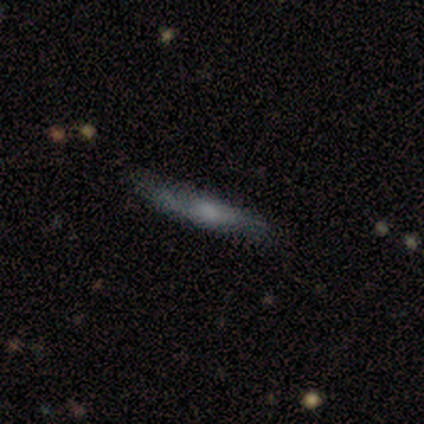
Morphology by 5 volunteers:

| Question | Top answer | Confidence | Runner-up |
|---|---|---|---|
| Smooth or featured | smooth | 100% | — |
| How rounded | cigar-shaped | 100% | — |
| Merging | none | 100% | — |